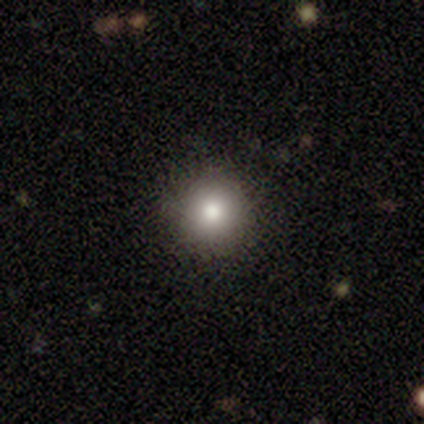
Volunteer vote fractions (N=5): featured or disk 60%, smooth 40%, star or artifact 0%. Down the decision tree: edge-on disk — no (100%); bar — no (100%); spiral arms — no (100%); bulge size — large (67%); merging — none (100%).